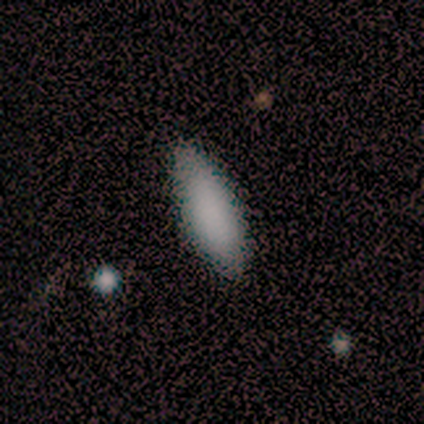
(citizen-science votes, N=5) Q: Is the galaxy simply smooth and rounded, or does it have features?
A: smooth — 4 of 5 (80%).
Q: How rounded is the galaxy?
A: in between — 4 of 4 (100%).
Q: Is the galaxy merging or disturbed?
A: none — 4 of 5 (80%).